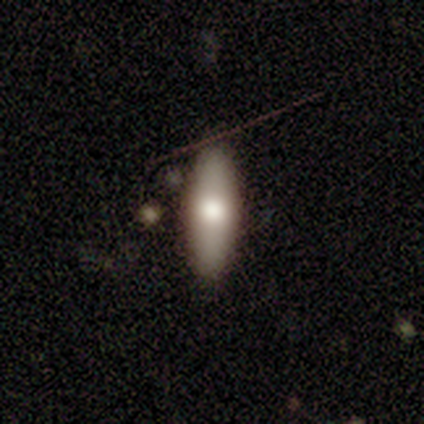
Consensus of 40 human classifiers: smooth 78%, featured or disk 18%, star or artifact 5%. Down the decision tree: how rounded — in between (61%); merging — none (50%).